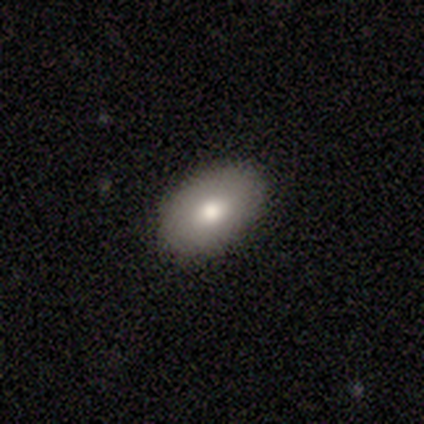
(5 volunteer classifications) Morphology: type=smooth (60%); roundness=in between (100%); merging=none (100%).